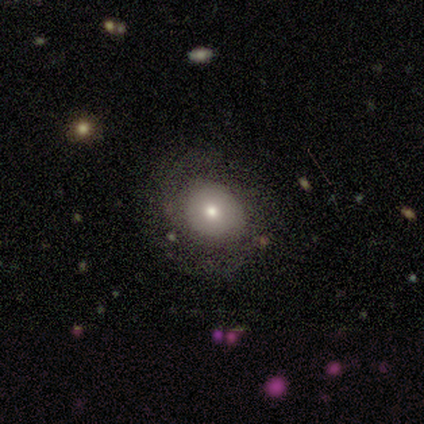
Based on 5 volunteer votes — Smooth or featured?
  - smooth: 100% *
  - featured or disk: 0%
  - star or artifact: 0%
How rounded?
  - round: 100% *
  - in between: 0%
  - cigar-shaped: 0%
Merging?
  - none: 80% *
  - minor disturbance: 20%
  - major disturbance: 0%
  - merger: 0%